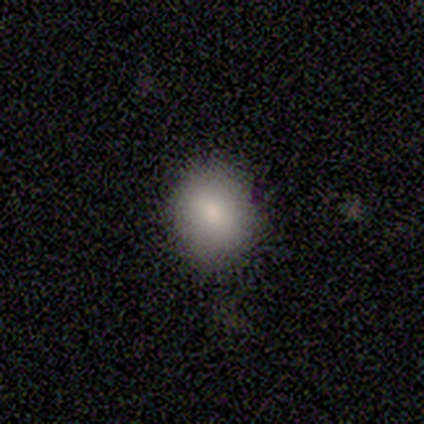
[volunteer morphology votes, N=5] type=smooth (100%); roundness=round (60%); merging=none (80%).